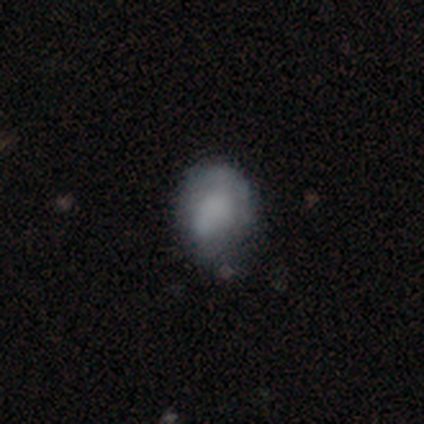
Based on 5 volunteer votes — Smooth or featured? 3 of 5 (60%) said smooth. How rounded? 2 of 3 (67%) said in between. Merging? 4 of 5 (80%) said none.